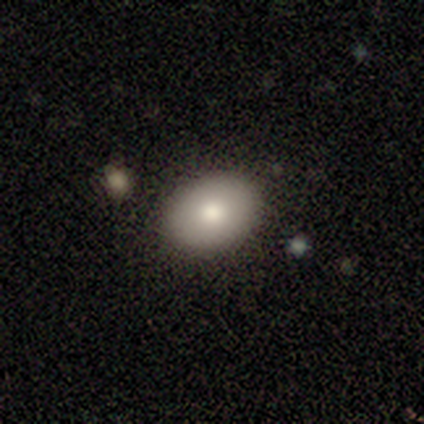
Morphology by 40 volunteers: A smooth galaxy with no disk features (88%) that is in between round and cigar-shaped (77%).

Vote fractions:
- Smooth or featured? smooth: 88% / featured or disk: 12% / star or artifact: 0%
- How rounded? in between: 77% / round: 20% / cigar-shaped: 3%
- Merging? none: 85% / minor disturbance: 10% / major disturbance: 2% / merger: 2%